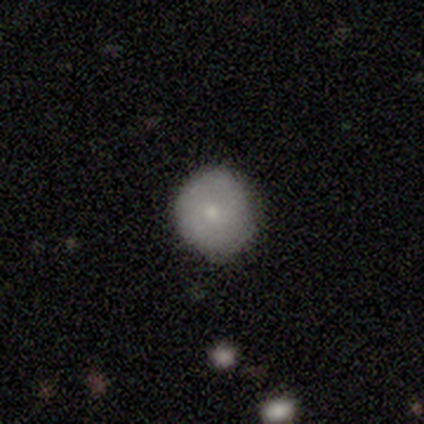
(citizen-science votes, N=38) Smooth or featured? smooth (66%)
How rounded? round (92%)
Merging? none (85%)